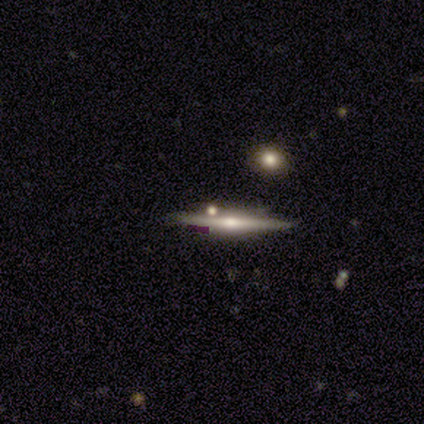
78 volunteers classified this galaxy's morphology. Smooth or featured? 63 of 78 (81%) said featured or disk. Edge-on disk? 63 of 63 (100%) said yes. Edge-on bulge? 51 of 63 (81%) said rounded. Merging? 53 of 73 (73%) said none.